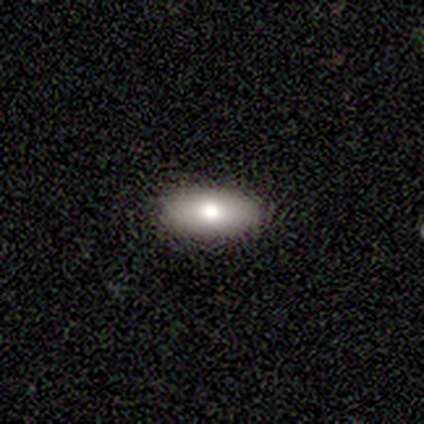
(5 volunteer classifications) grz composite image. It shows a smooth galaxy with no disk features (100%) that is in between round and cigar-shaped (80%). Merging: none (80%).